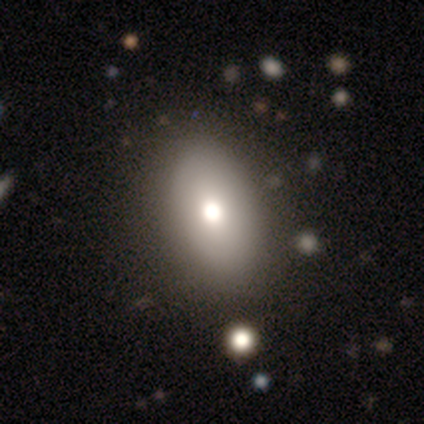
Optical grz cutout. It shows a smooth galaxy with no disk features (50%, tied with featured or disk) that is in between round and cigar-shaped (100%). Merging: none (100%).